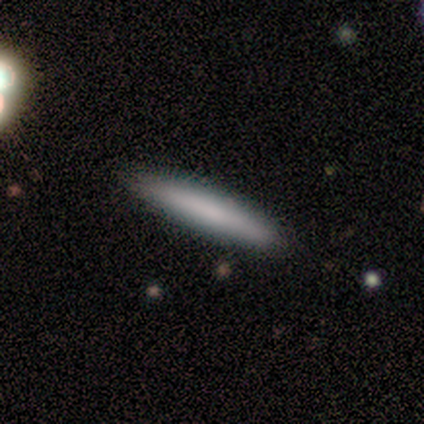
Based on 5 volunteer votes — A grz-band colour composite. It shows a smooth galaxy with no disk features (80%) that is cigar-shaped (75%). Merging: none (100%).